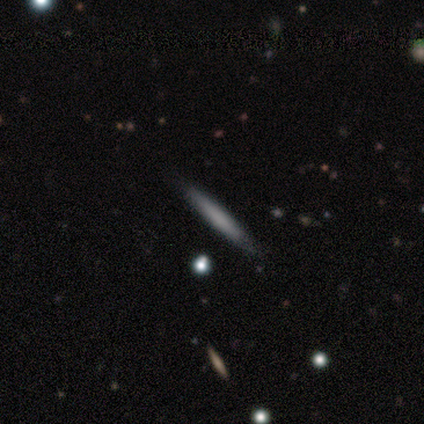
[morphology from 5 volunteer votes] This appears to be a smooth galaxy with no disk features (60%) that is cigar-shaped (100%). Merging: none (100%).